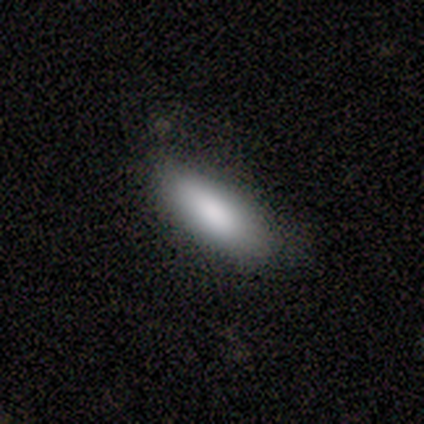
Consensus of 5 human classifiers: A smooth galaxy with no disk features (80%) that is in between round and cigar-shaped (75%). Merging: none (80%).